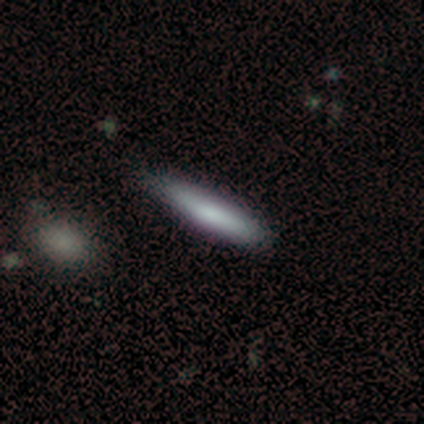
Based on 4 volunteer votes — Smooth or featured: smooth — 50% (featured or disk — 25%)
How rounded: round — 50% (tied with cigar-shaped — 50%)
Merging: none — 33% (tied with minor disturbance — 33%; merger — 33%)